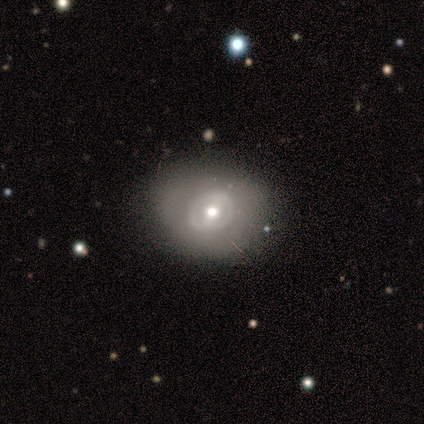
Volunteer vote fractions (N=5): Morphology: type=featured or disk (80%); edge-on=no (100%); bar=weak (50%); spiral arms=yes (75%); winding=tight (67%); arm count=2 (100%); bulge=moderate (75%); merging=none (60%).